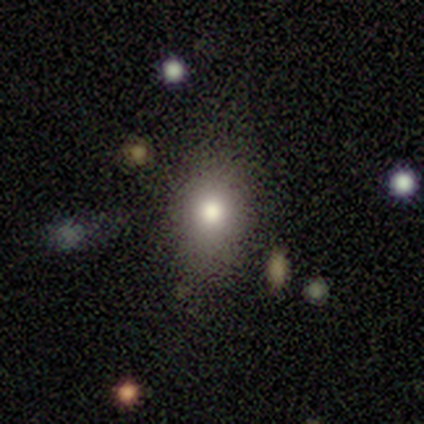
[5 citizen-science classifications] A smooth galaxy with no disk features (80%) that is in between round and cigar-shaped (75%). Merging: none (100%).